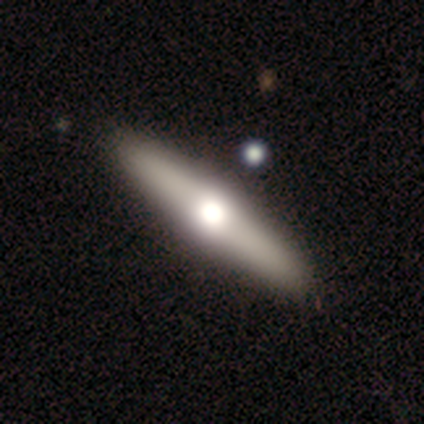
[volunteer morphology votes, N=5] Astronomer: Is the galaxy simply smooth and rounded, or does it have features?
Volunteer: featured or disk — 80%.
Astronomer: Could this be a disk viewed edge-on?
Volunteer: yes — 100%.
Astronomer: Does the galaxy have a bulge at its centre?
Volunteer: rounded — 100%.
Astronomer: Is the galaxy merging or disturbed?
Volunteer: none — 100%.